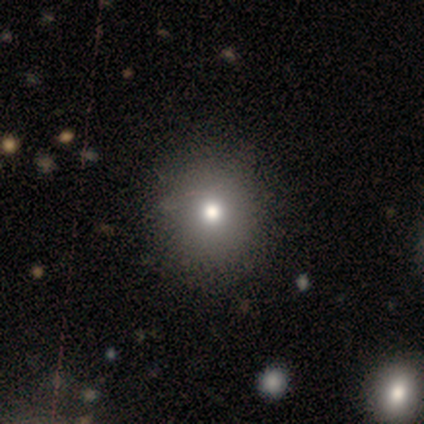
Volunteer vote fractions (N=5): A smooth galaxy with no disk features (100%) that is round (100%). Merging: none (80%).